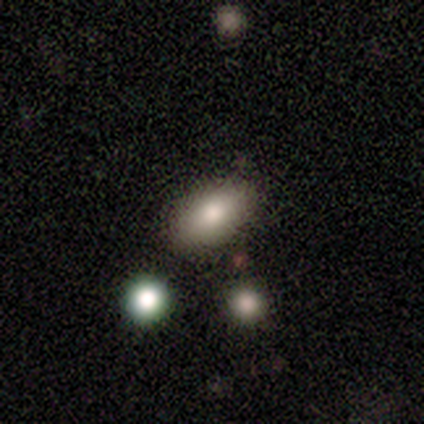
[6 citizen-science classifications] Overall: smooth (67%). How rounded: in between (100%). Merging: none (100%).